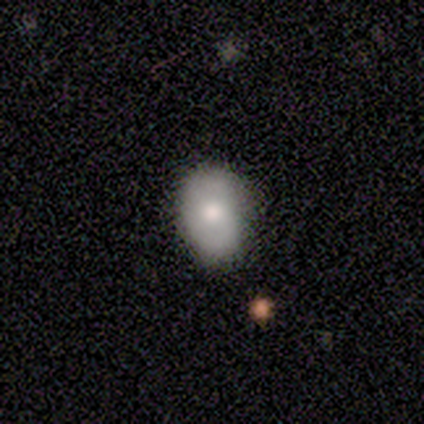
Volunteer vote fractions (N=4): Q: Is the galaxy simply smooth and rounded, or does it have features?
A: smooth — 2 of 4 (50%, tied with featured or disk).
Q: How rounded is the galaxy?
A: round — 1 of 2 (50%, tied with in between).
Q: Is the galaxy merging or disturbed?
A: none — 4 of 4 (100%).